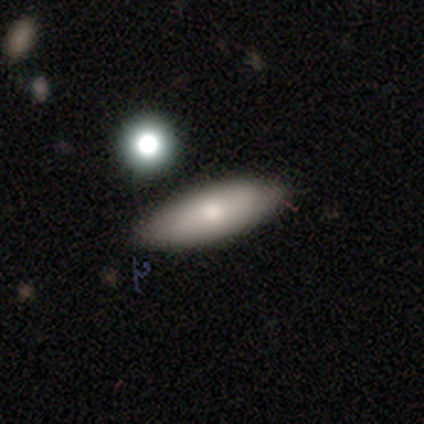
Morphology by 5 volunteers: smooth-or-featured: smooth: 60% | star or artifact: 40% | featured or disk: 0%
  how-rounded: cigar-shaped: 67% | in between: 33% | round: 0%
  merging: none: 67% | minor disturbance: 33% | major disturbance: 0% | merger: 0%